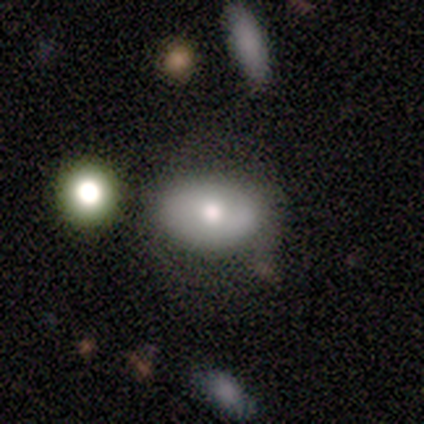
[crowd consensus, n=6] Smooth or featured? 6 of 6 (100%) said smooth. How rounded? 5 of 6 (83%) said in between. Merging? 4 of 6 (67%) said none.